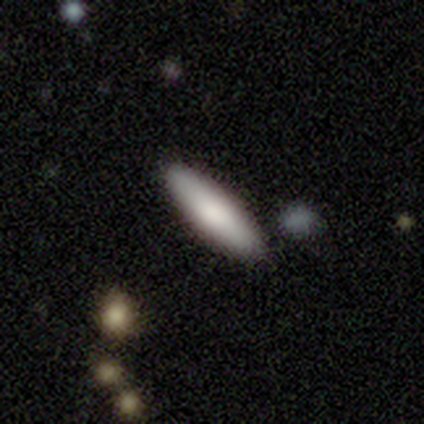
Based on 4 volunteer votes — Smooth or featured? smooth (100%)
How rounded? cigar-shaped (75%)
Merging? none (100%)